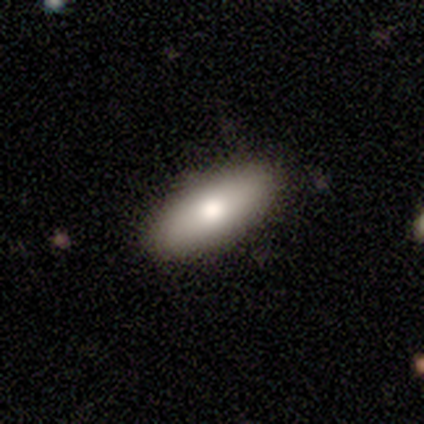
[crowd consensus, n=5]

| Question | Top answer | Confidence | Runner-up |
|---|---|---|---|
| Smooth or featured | smooth | 60% | featured or disk (20%) |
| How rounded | in between | 100% | — |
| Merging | none | 100% | — |